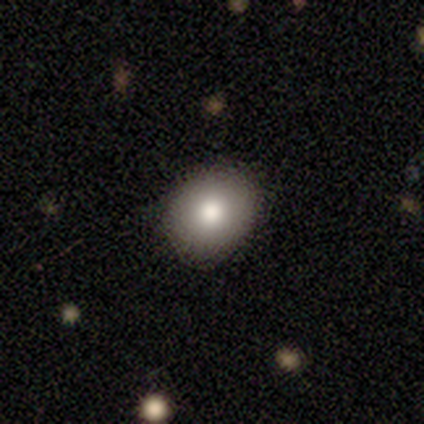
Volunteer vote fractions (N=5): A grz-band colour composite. It shows a smooth galaxy with no disk features (100%) that is round (60%). Merging: none (100%).